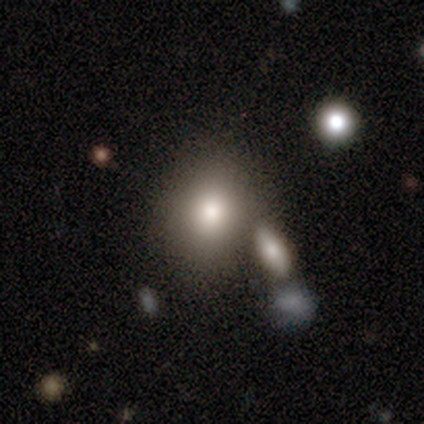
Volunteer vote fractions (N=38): A smooth galaxy with no disk features (89%) that is in between round and cigar-shaped (53%).

Vote fractions:
- Smooth or featured? smooth: 89% / featured or disk: 5% / star or artifact: 5%
- How rounded? in between: 53% / round: 47% / cigar-shaped: 0%
- Merging? none: 72% / merger: 17% / minor disturbance: 8% / major disturbance: 3%